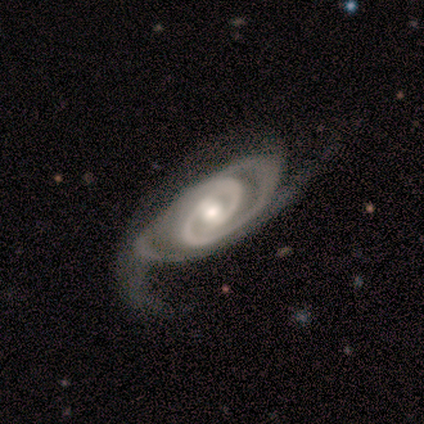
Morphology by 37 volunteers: smooth-or-featured: featured or disk: 100% | smooth: 0% | star or artifact: 0%
  disk-edge-on: no: 97% | yes: 3%
    bar: no: 44% | weak: 33% | strong: 22%
    has-spiral-arms: yes: 100% | no: 0%
      spiral-winding: tight: 64% | medium: 36% | loose: 0%
      spiral-arm-count: 2: 89% | 3: 8% | can't tell: 3% | 1: 0% | 4: 0% | more than 4: 0%
    bulge-size: moderate: 58% | small: 31% | large: 8% | dominant: 3% | none: 0%
  merging: none: 38% | major disturbance: 22% | minor disturbance: 16% | merger: 0%